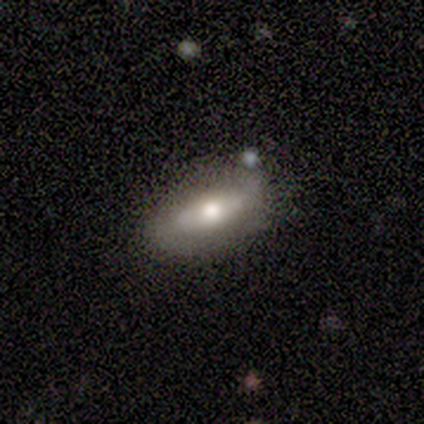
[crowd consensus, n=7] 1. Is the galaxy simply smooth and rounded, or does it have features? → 57% featured or disk, 29% smooth, 14% star or artifact.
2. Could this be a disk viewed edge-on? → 75% no, 25% yes.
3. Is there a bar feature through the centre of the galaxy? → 67% no, 33% strong, 0% weak.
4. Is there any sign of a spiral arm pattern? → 100% no, 0% yes.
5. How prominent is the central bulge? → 67% moderate, 33% large, 0% dominant, 0% small, 0% none.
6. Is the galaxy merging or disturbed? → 83% none, 17% minor disturbance, 0% major disturbance, 0% merger.